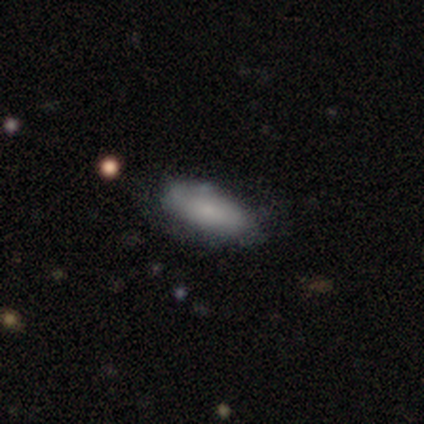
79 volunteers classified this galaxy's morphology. A smooth galaxy with no disk features (76%) that is in between round and cigar-shaped (83%).

Vote fractions:
- Smooth or featured? smooth: 76% / featured or disk: 19% / star or artifact: 5%
- How rounded? in between: 83% / cigar-shaped: 17% / round: 0%
- Merging? none: 33% / minor disturbance: 13% / major disturbance: 3% / merger: 3%